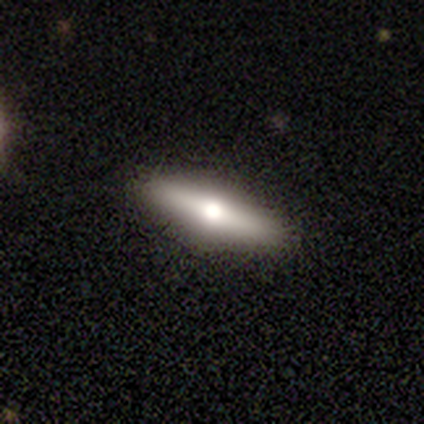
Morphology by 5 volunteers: Overall: featured or disk (60%; smooth 40%). Edge-on disk: yes (67%; no 33%). Edge-on bulge: rounded (100%). Merging: none (80%).